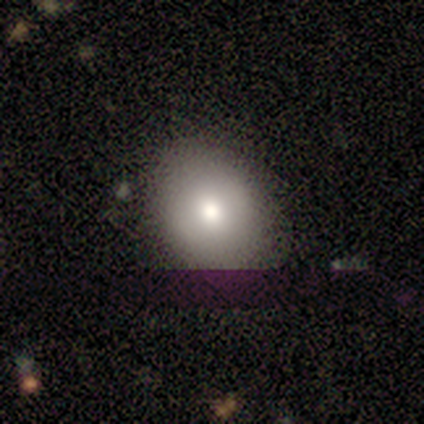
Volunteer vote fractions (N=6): Overall: smooth (50%, tied with featured or disk). How rounded: in between (67%; round 33%). Merging: none (67%; minor disturbance 33%).